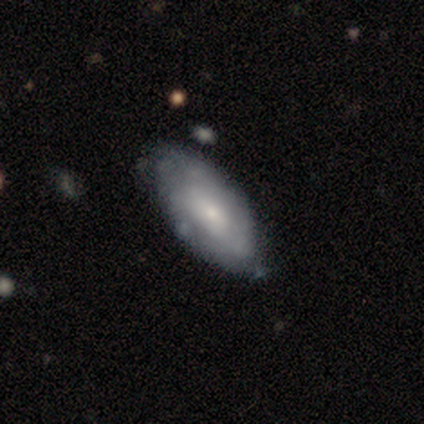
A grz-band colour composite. It shows a featured or disk galaxy (80%) with no bar (100%), no spiral arms (100%) and a moderate central bulge (50%, tied with small). Merging: none (75%).